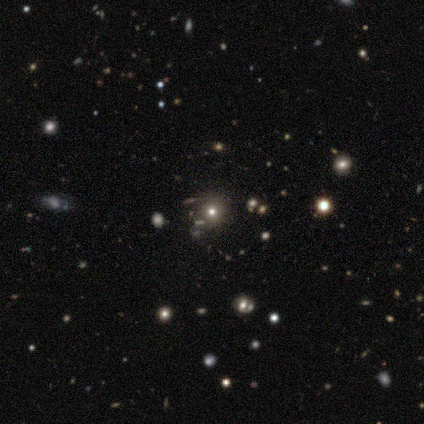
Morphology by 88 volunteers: A smooth galaxy with no disk features (43%) that is round (100%).

Vote fractions:
- Smooth or featured? smooth: 43% / star or artifact: 41% / featured or disk: 16%
- How rounded? round: 100% / in between: 0% / cigar-shaped: 0%
- Merging? none: 88% / minor disturbance: 6% / merger: 4% / major disturbance: 2%